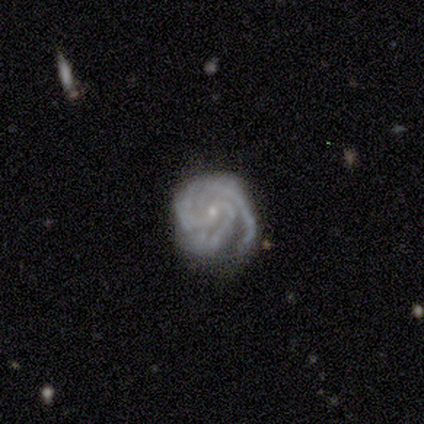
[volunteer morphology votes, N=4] Smooth or featured? 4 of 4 (100%) said featured or disk. Edge-on disk? 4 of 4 (100%) said no. Bar? 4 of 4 (100%) said no. Spiral arms? 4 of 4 (100%) said yes. Spiral winding? 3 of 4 (75%) said tight. Spiral arm count? 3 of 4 (75%) said 3. Bulge size? 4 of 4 (100%) said small. Merging? 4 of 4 (100%) said none.